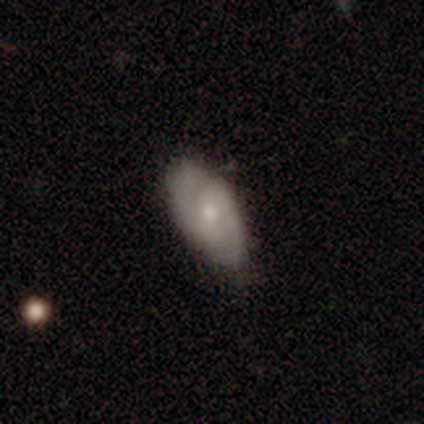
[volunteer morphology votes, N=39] This is likely a featured or disk galaxy (64%). It is clearly not viewed edge-on (88%). Bar: likely no (68%). Spiral arm pattern: clearly yes (86%). Spiral arm count: likely 2 (79%). Spiral winding: possibly medium (53%). Central bulge: possibly moderate (50%). Merging: likely none (71%).